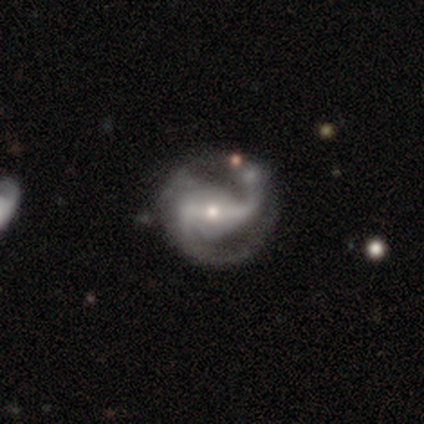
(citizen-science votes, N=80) Volunteers were most divided on "merging": none: 26%, minor disturbance: 17%, major disturbance: 14%, merger: 5%. More confident: edge-on disk — no (99%); spiral arms — yes (96%); smooth or featured — featured or disk (95%); spiral arm count — 2 (89%); bar — strong (59%); bulge size — small (56%); spiral winding — medium (54%).